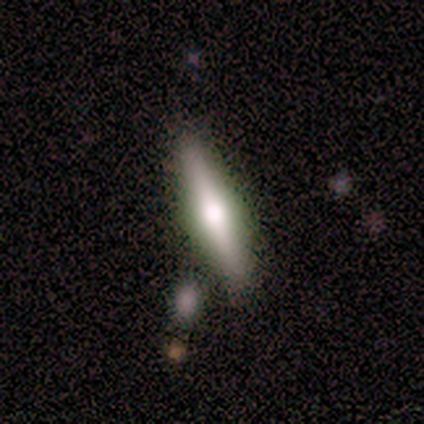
Overall: featured or disk (60%; smooth 40%). Edge-on disk: yes (67%; no 33%). Edge-on bulge: rounded (100%). Merging: none (80%).